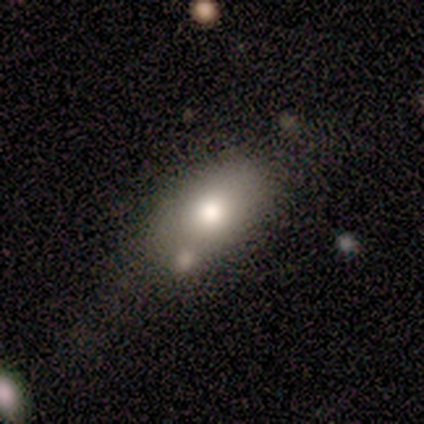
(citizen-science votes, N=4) smooth-or-featured: smooth: 75% | featured or disk: 25% | star or artifact: 0%
  how-rounded: in between: 100% | round: 0% | cigar-shaped: 0%
  merging: merger: 50% | none: 25% | major disturbance: 25% | minor disturbance: 0%